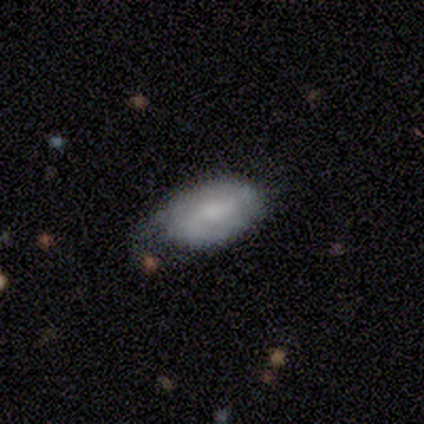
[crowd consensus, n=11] This is possibly a featured or disk galaxy (55%). It is clearly not viewed edge-on (83%). Bar: likely strong (60%). Spiral arm pattern: likely yes (60%). Spiral arm count: likely 2 (67%). Spiral winding: likely tight (67%). Central bulge: likely small (60%). Merging: likely minor disturbance (70%).